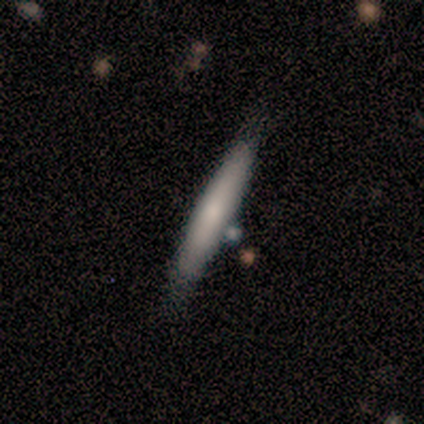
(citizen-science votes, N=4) Smooth or featured?
  - smooth: 100% *
  - featured or disk: 0%
  - star or artifact: 0%
How rounded?
  - cigar-shaped: 100% *
  - round: 0%
  - in between: 0%
Merging?
  - none: 100% *
  - minor disturbance: 0%
  - major disturbance: 0%
  - merger: 0%